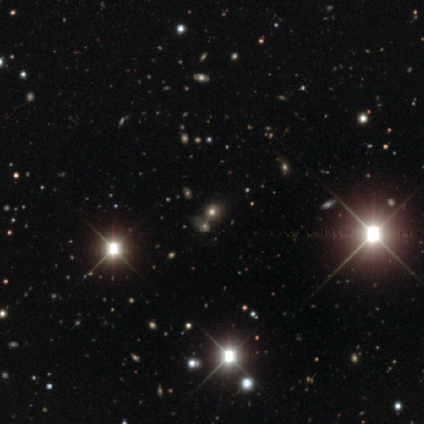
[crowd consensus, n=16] This is likely a star or artifact rather than a galaxy (69%).